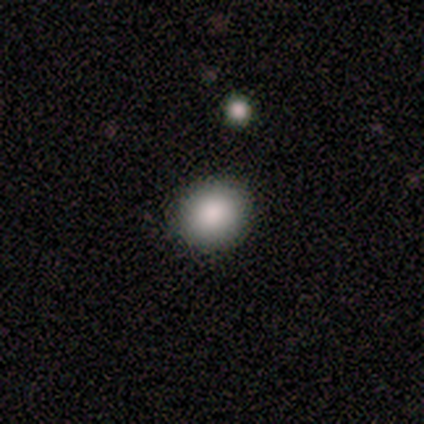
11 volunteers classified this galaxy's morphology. Smooth or featured? 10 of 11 (91%) said smooth. How rounded? 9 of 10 (90%) said round. Merging? 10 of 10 (100%) said none.